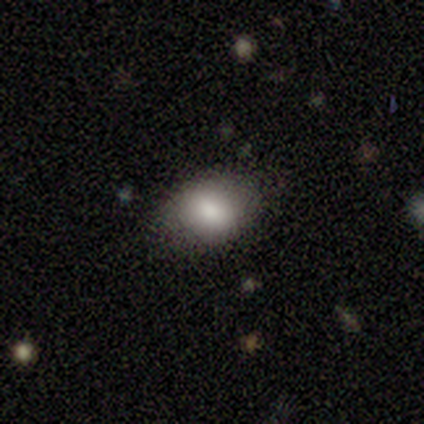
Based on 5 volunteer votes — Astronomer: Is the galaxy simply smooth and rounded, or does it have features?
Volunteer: smooth — 80%.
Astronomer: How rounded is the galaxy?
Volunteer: round — 50%, tied with in between at 50%.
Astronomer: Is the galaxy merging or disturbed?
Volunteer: none — 100%.